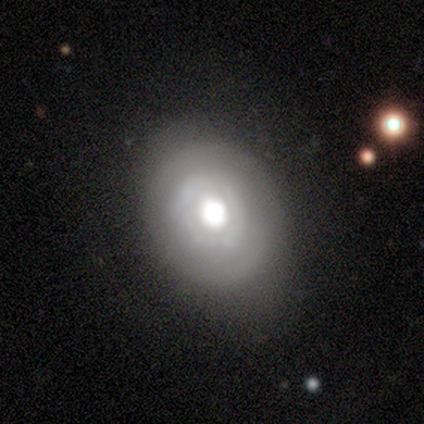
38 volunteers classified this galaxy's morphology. type=smooth (58%); roundness=in between (55%); merging=none (70%).